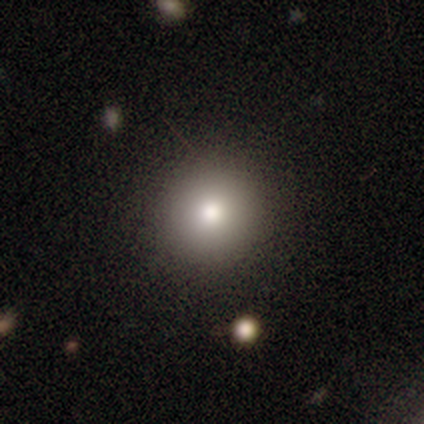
Q: Smooth or featured?
A: smooth (60%); runner-up: featured or disk (20%)
Q: How rounded?
A: round (100%)
Q: Merging?
A: none (100%)